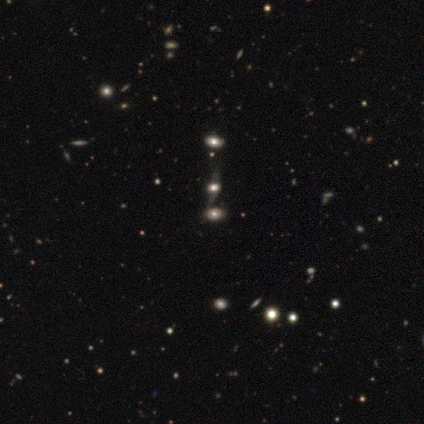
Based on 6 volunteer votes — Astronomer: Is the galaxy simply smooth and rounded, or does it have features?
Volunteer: featured or disk — 50% (runner-up: smooth, 33%).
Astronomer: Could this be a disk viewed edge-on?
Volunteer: no — 100%.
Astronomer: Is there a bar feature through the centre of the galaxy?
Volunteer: no — 100%.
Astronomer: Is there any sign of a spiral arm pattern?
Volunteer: no — 67%.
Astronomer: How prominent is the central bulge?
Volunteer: large — 67%.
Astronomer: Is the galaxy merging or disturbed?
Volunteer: none — 80%.